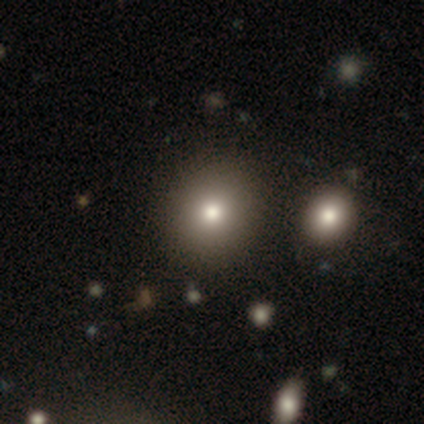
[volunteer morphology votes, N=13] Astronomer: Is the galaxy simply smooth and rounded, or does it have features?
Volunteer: smooth — 77%.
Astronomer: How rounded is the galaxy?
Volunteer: round — 80%.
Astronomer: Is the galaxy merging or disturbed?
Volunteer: none — 100%.